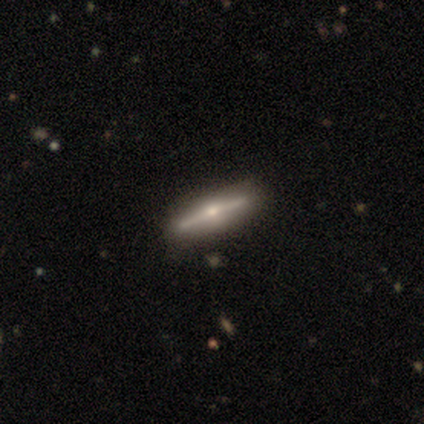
This is clearly a featured or disk galaxy (100%). It is clearly viewed edge-on (100%). Edge-on bulge: clearly rounded (100%). Merging: clearly none (100%).